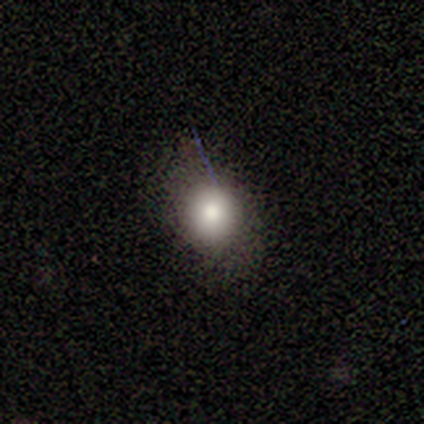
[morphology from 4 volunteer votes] Volunteers were most divided on "merging": none: 75%, minor disturbance: 25%, major disturbance: 0%, merger: 0%. More confident: smooth or featured — smooth (100%); how rounded — round (100%).